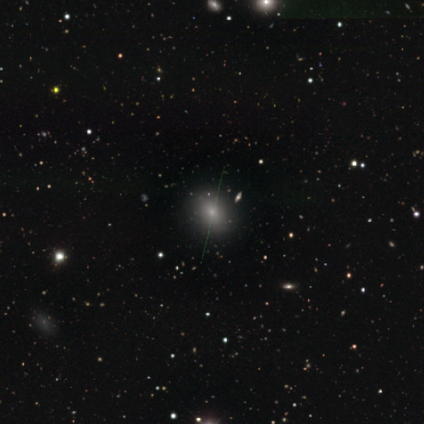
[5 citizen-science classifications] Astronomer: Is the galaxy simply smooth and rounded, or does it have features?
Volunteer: smooth — 40%, tied with star or artifact at 40%.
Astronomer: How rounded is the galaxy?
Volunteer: round — 50%, tied with in between at 50%.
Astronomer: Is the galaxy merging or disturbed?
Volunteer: none — 100%.